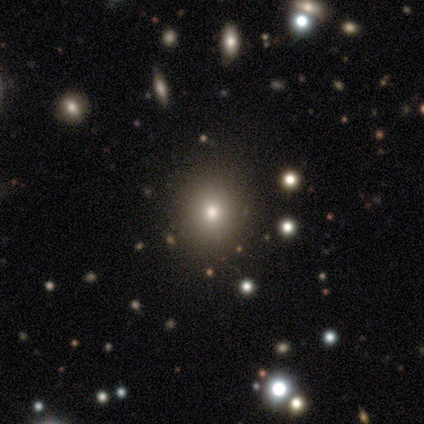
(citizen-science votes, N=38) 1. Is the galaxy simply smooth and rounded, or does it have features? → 79% smooth, 13% star or artifact, 8% featured or disk.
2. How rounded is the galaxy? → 83% round, 17% in between, 0% cigar-shaped.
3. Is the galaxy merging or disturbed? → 70% none, 3% major disturbance, 0% minor disturbance, 0% merger.